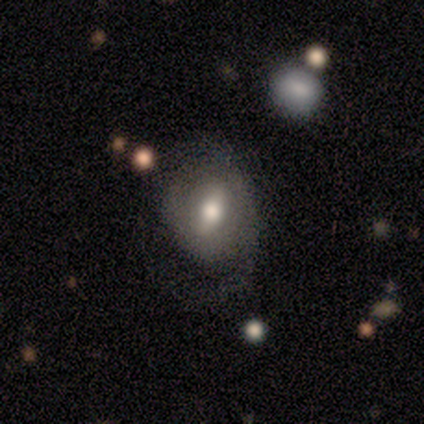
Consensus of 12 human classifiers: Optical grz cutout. It shows a featured or disk galaxy (58%) with a weak bar (57%), 2 (75%) tight (75%) spiral arms (57%) and a moderate central bulge (100%). Merging: none (58%).